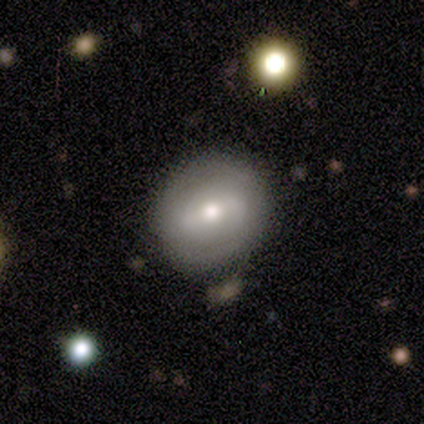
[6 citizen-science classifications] Overall: smooth (50%, tied with featured or disk). How rounded: round (67%; in between 33%). Merging: none (83%).